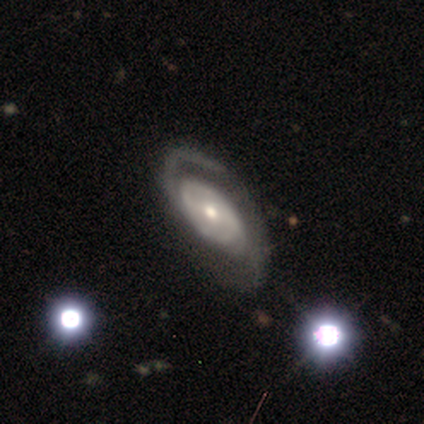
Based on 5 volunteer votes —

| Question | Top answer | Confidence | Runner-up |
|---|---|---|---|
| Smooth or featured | featured or disk | 80% | star or artifact (20%) |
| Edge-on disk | no | 75% | yes (25%) |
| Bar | strong | 33% | tied: weak (33%), no (33%) |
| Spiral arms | yes | 100% | — |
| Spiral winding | tight | 67% | medium (33%) |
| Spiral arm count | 2 | 67% | 1 (33%) |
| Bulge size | small | 67% | moderate (33%) |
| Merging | none | 75% | minor disturbance (25%) |